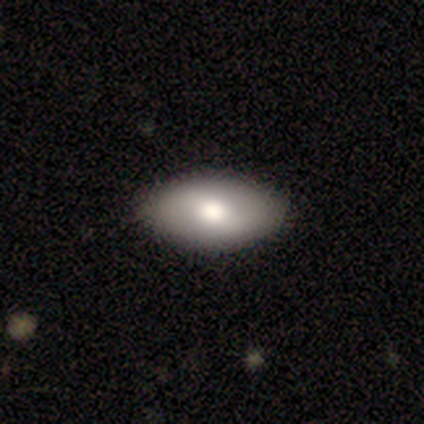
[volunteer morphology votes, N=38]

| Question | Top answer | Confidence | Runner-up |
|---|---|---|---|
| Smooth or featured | smooth | 63% | featured or disk (32%) |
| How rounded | in between | 96% | round (4%) |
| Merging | none | 94% | minor disturbance (3%) |